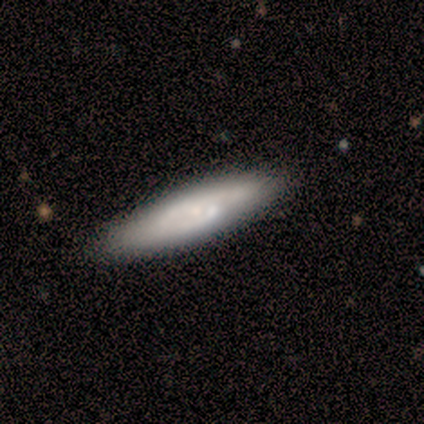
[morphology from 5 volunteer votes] A smooth galaxy with no disk features (40%, tied with featured or disk) that is in between round and cigar-shaped (50%, tied with cigar-shaped).

Vote fractions:
- Smooth or featured? smooth: 40% (tied) / featured or disk: 40% (tied) / star or artifact: 20%
- How rounded? in between: 50% (tied) / cigar-shaped: 50% (tied) / round: 0%
- Merging? none: 75% / minor disturbance: 25% / major disturbance: 0% / merger: 0%